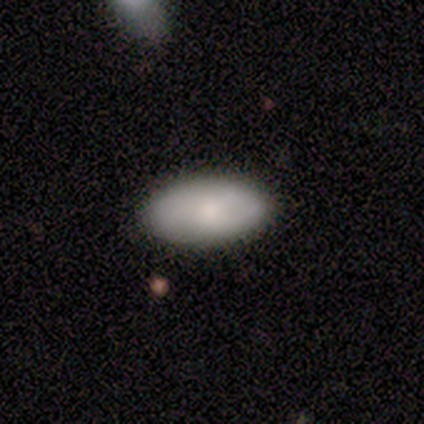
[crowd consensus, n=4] A smooth galaxy with no disk features (50%) that is in between round and cigar-shaped (100%).

Vote fractions:
- Smooth or featured? smooth: 50% / featured or disk: 25% / star or artifact: 25%
- How rounded? in between: 100% / round: 0% / cigar-shaped: 0%
- Merging? none: 67% / minor disturbance: 33% / major disturbance: 0% / merger: 0%